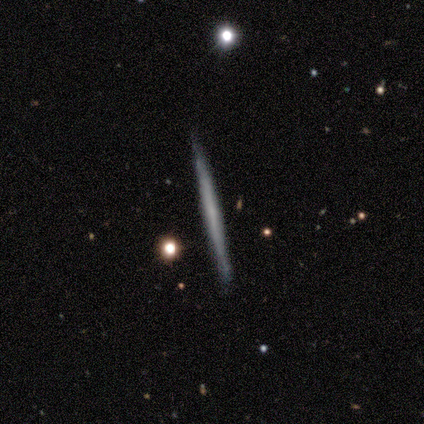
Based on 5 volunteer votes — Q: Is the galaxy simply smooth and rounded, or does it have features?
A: featured or disk — 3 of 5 (60%).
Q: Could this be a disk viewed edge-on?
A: yes — 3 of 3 (100%).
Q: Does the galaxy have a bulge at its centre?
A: none — 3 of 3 (100%).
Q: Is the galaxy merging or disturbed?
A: none — 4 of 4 (100%).